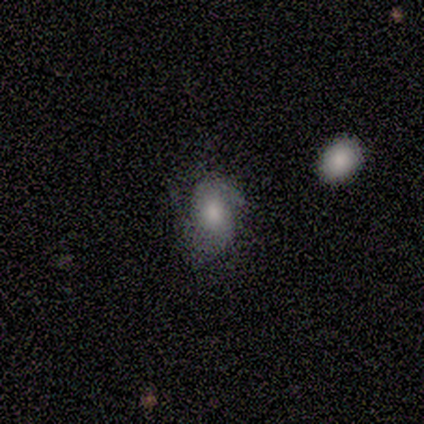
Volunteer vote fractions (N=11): This appears to be a smooth galaxy with no disk features (73%) that is in between round and cigar-shaped (75%). Merging: none (36%, tied with minor disturbance).